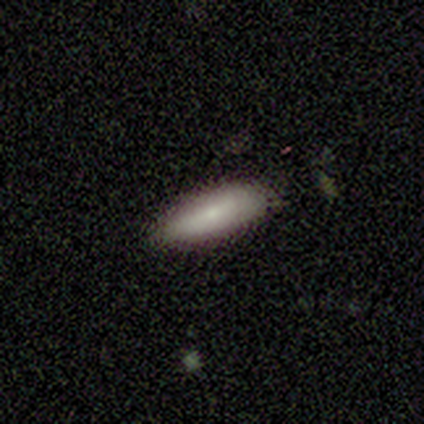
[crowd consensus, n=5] smooth-or-featured: smooth: 80% | star or artifact: 20% | featured or disk: 0%
  how-rounded: in between: 50% (tied) | cigar-shaped: 50% (tied) | round: 0%
  merging: none: 75% | minor disturbance: 25% | major disturbance: 0% | merger: 0%